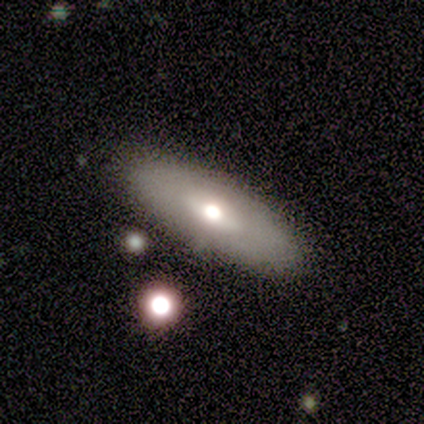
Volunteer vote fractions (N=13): Smooth or featured? smooth (69%)
How rounded? in between (67%)
Merging? none (92%)